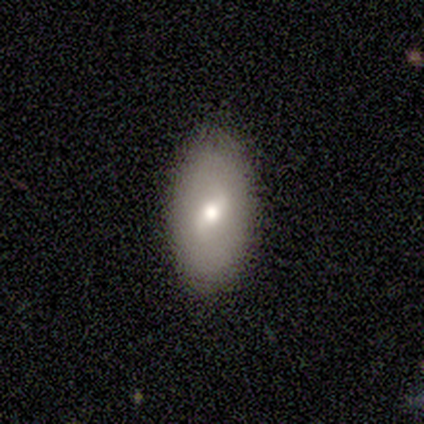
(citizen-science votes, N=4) smooth-or-featured: featured or disk: 100% | smooth: 0% | star or artifact: 0%
  disk-edge-on: yes: 50% (tied) | no: 50% (tied)
    edge-on-bulge: rounded: 100% | boxy: 0% | none: 0%
  merging: none: 75% | minor disturbance: 25% | major disturbance: 0% | merger: 0%